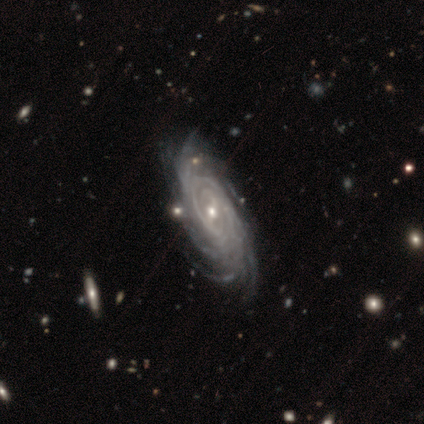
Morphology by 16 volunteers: This appears to be a featured or disk galaxy (88%) with a weak bar (46%), tight (85%) spiral arms (100%) and a small central bulge (92%). Merging: none (60%).